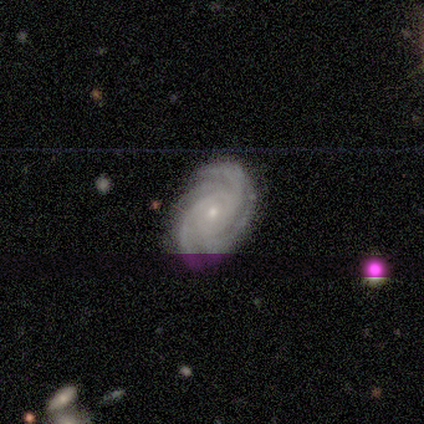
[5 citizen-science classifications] Smooth or featured?
  - featured or disk: 80% *
  - star or artifact: 20%
  - smooth: 0%
Edge-on disk?
  - no: 100% *
  - yes: 0%
Bar?
  - no: 75% *
  - strong: 25%
  - weak: 0%
Spiral arms?
  - yes: 100% *
  - no: 0%
Spiral winding?
  - tight: 50% *
  - medium: 25%
  - loose: 25%
Spiral arm count?
  - 3: 50% *
  - 4: 25%
  - can't tell: 25%
  - 1: 0%
  - 2: 0%
  - more than 4: 0%
Bulge size?
  - small: 100% *
  - dominant: 0%
  - large: 0%
  - moderate: 0%
  - none: 0%
Merging?
  - none: 75% *
  - minor disturbance: 25%
  - major disturbance: 0%
  - merger: 0%